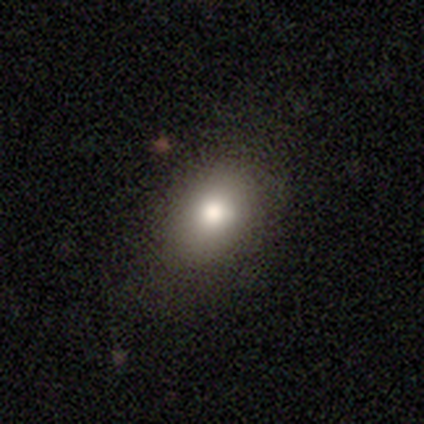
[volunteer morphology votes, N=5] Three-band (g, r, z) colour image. It shows a smooth galaxy with no disk features (100%) that is in between round and cigar-shaped (100%). Merging: none (100%).